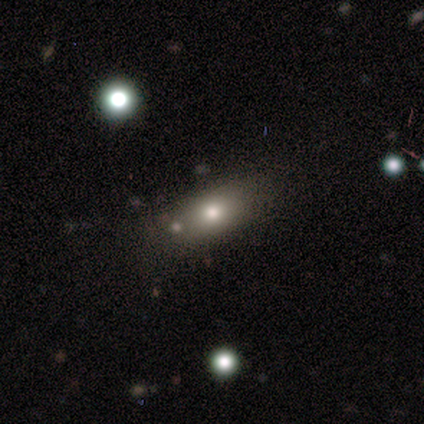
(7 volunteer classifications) Smooth or featured: smooth — 86% (featured or disk — 14%)
How rounded: in between — 83% (cigar-shaped — 17%)
Merging: none — 71% (minor disturbance — 14%)